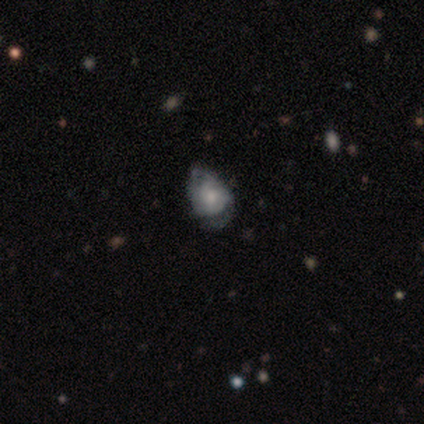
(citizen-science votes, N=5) Morphology: type=smooth (60%); roundness=in between (100%); merging=minor disturbance (60%).